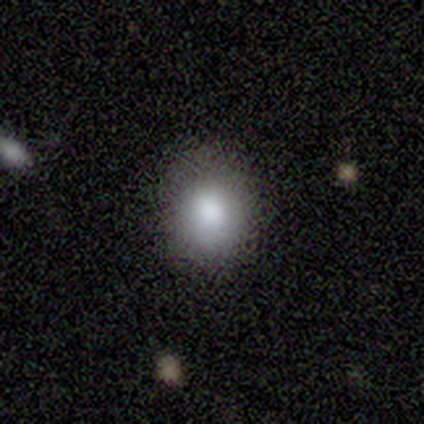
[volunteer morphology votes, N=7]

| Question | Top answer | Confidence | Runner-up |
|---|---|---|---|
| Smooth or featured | smooth | 100% | — |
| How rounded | round | 57% | in between (43%) |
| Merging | none | 100% | — |